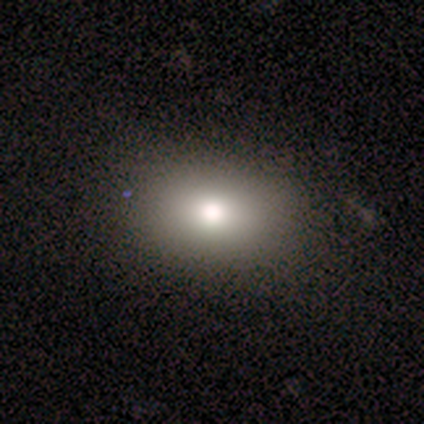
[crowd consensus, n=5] Morphology: type=smooth (80%); roundness=in between (100%); merging=none (75%).